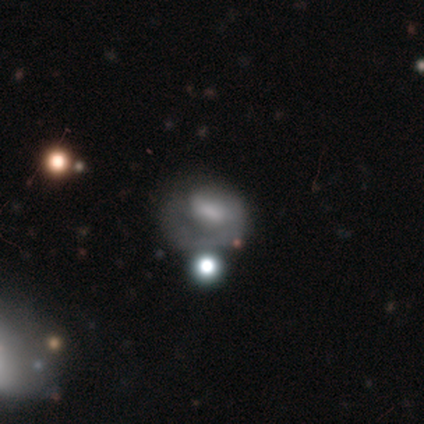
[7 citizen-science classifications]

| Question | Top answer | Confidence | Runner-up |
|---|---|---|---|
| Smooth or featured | featured or disk | 71% | smooth (29%) |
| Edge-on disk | no | 100% | — |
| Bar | no | 80% | weak (20%) |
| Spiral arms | yes | 60% | no (40%) |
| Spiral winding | medium | 100% | — |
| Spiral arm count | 1 | 100% | — |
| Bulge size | moderate | 40% | tied: none (40%) |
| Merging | none | 43% | tied: major disturbance (43%) |